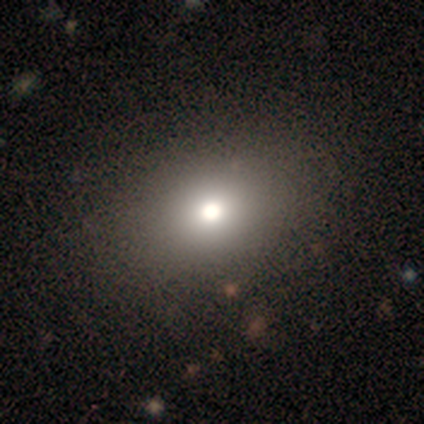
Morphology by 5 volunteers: Smooth or featured: smooth — 60% (star or artifact — 40%)
How rounded: in between — 67% (round — 33%)
Merging: none — 100%